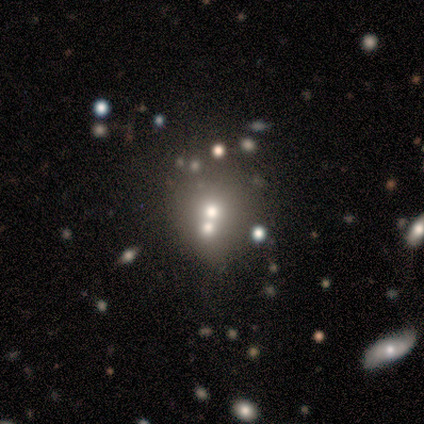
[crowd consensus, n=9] A smooth galaxy with no disk features (56%) that is round (100%). Merging: none (57%).